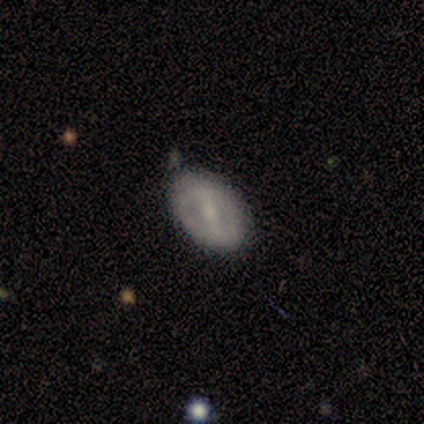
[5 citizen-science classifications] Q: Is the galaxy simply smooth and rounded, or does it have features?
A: smooth — 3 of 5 (60%).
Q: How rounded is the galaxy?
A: in between — 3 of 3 (100%).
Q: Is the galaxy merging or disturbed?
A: none — 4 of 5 (80%).